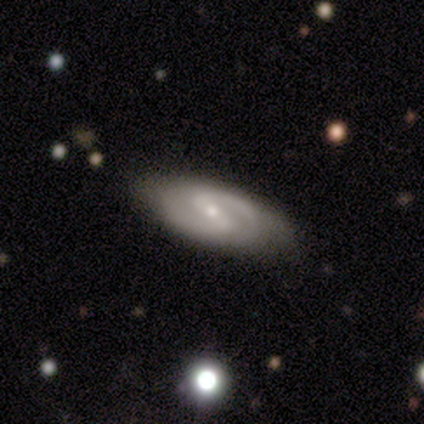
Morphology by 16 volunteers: This is clearly a featured or disk galaxy (94%). It is clearly not viewed edge-on (87%). Bar: possibly weak (46%). Spiral arm pattern: clearly yes (100%). Spiral arm count: likely 2 (77%). Spiral winding: possibly medium (54%). Central bulge: possibly small (54%). Merging: clearly none (81%).